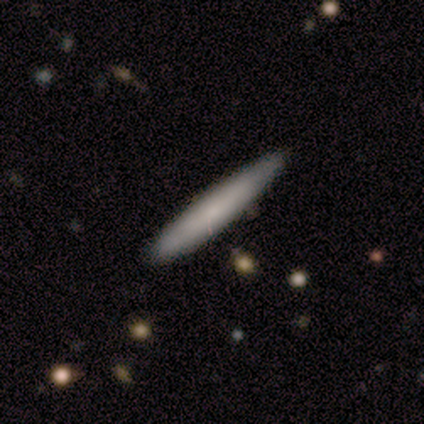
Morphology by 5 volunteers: Overall: smooth (100%). How rounded: cigar-shaped (100%). Merging: none (80%).